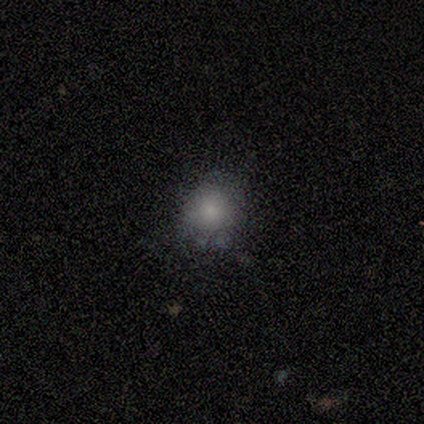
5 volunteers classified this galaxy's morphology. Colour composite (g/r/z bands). It shows a smooth galaxy with no disk features (60%) that is round (100%). Merging: none (80%).